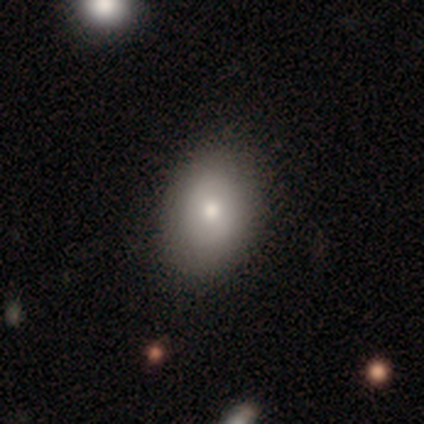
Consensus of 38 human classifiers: smooth-or-featured: smooth: 82% | star or artifact: 11% | featured or disk: 8%
  how-rounded: in between: 71% | round: 29% | cigar-shaped: 0%
  merging: none: 74% | minor disturbance: 26% | major disturbance: 0% | merger: 0%